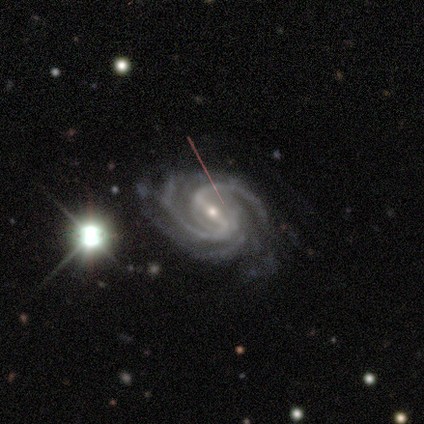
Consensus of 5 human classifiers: A featured or disk galaxy (100%) with a weak bar (60%), 2 (60%) tight (40%, tied with medium) spiral arms (100%) and a small central bulge (100%). Merging: none (100%).